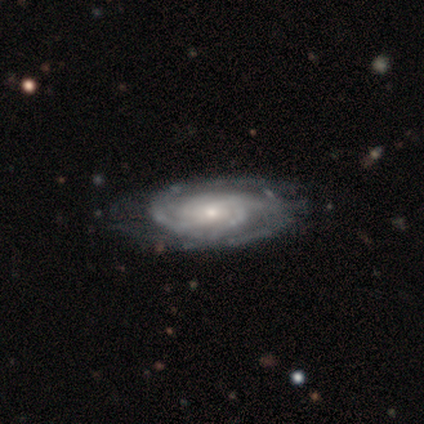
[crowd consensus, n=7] Morphology: type=featured or disk (100%); edge-on=no (86%); bar=no (83%); spiral arms=yes (100%); winding=tight (83%); arm count=can't tell (50%); bulge=small (100%); merging=none (71%).